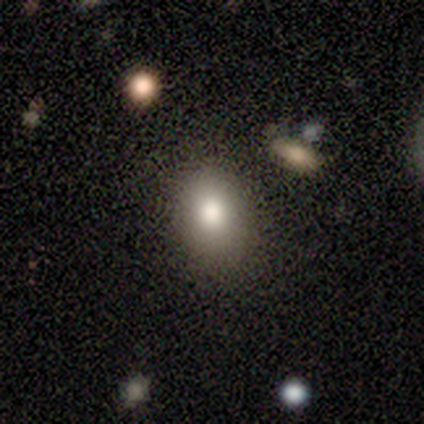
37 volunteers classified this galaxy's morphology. Q: Smooth or featured?
A: smooth (78%); runner-up: star or artifact (14%)
Q: How rounded?
A: in between (55%); runner-up: round (45%)
Q: Merging?
A: none (84%); runner-up: minor disturbance (12%)